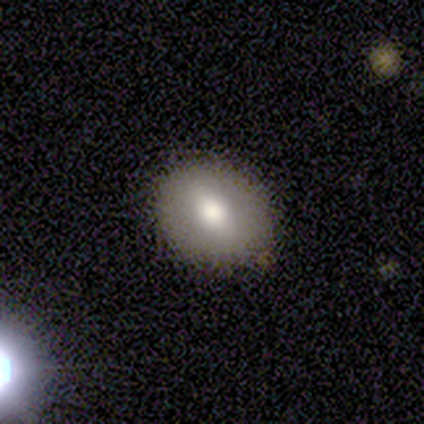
Volunteers were most divided on "how rounded" (2-way tie): round: 50%, in between: 50%, cigar-shaped: 0%. More confident: smooth or featured — smooth (100%); merging — none (100%).